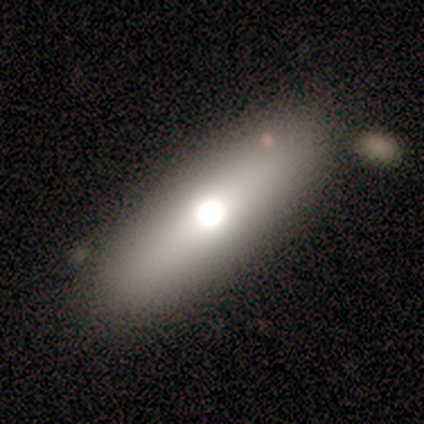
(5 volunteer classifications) Overall: smooth (60%; featured or disk 40%). How rounded: cigar-shaped (100%). Merging: none (60%; minor disturbance 20%).